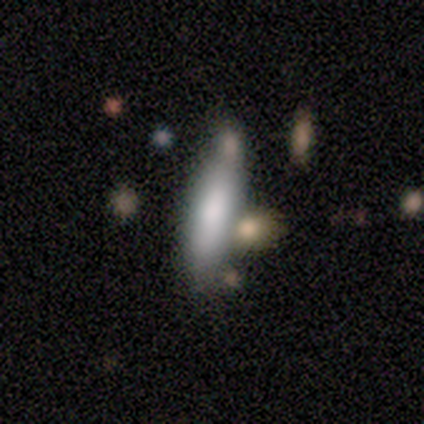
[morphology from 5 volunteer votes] Overall: smooth (100%). How rounded: in between (40%, tied with cigar-shaped). Merging: minor disturbance (60%; none 40%).